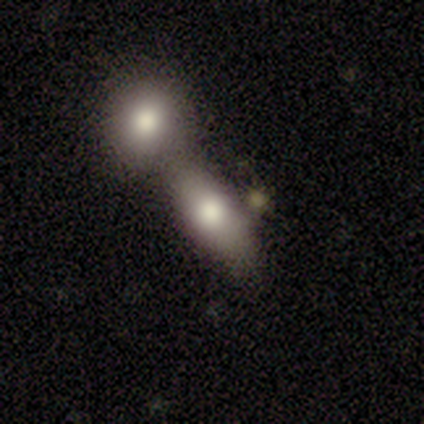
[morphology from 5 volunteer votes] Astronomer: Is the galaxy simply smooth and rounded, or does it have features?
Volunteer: smooth — 100%.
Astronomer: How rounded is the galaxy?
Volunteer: in between — 60% (runner-up: round, 40%).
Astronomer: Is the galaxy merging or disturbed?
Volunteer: merger — 60% (runner-up: none, 40%).